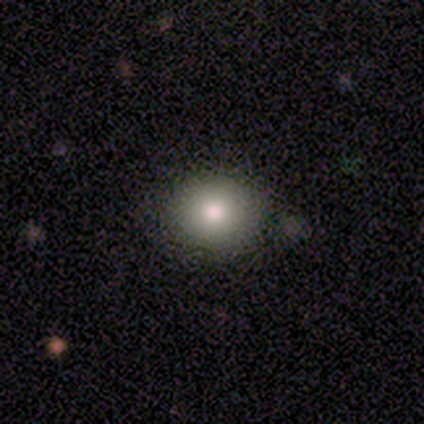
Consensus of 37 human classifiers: smooth_or_featured: smooth (p=0.78) [alt: featured or disk p=0.19]
how_rounded: round (p=0.79) [alt: in between p=0.21]
merging: none (p=0.86) [alt: minor disturbance p=0.11]